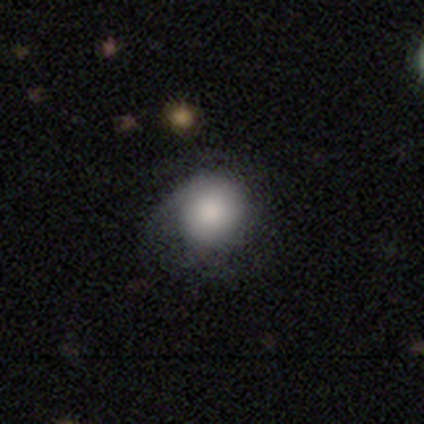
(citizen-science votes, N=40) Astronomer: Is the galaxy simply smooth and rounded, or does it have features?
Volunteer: smooth — 60% (runner-up: featured or disk, 38%).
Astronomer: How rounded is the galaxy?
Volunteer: round — 100%.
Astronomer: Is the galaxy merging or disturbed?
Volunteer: none — 49% (runner-up: minor disturbance, 33%).